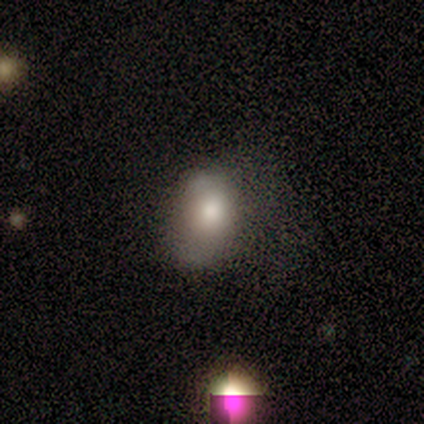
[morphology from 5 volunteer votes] Overall: featured or disk (60%; smooth 20%). Edge-on disk: no (100%). Bar: no (100%). Spiral arms: no (67%; yes 33%). Bulge size: dominant (33%, tied with large and moderate). Merging: major disturbance (50%; none 25%).